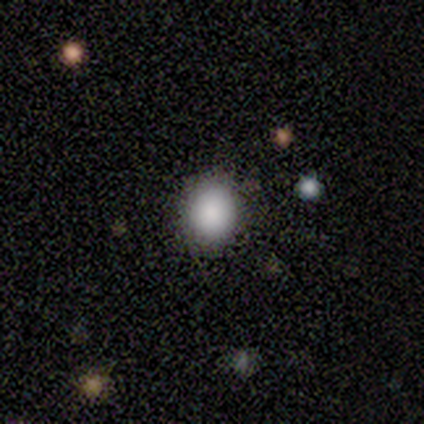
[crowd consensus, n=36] Q: Smooth or featured?
A: smooth (83%); runner-up: star or artifact (11%)
Q: How rounded?
A: round (80%); runner-up: in between (20%)
Q: Merging?
A: none (94%); runner-up: minor disturbance (6%)